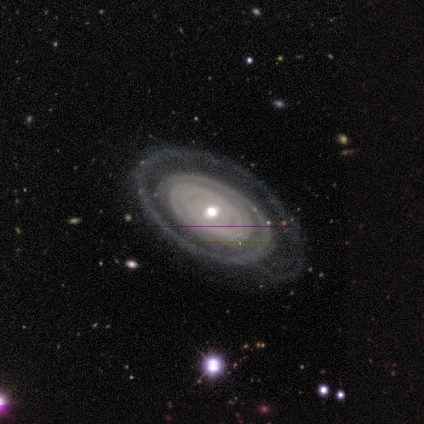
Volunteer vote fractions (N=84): This appears to be a featured or disk galaxy (83%) with no bar (59%), 1 (44%) tight (81%) spiral arms (87%) and a moderate central bulge (63%). Merging: none (67%).